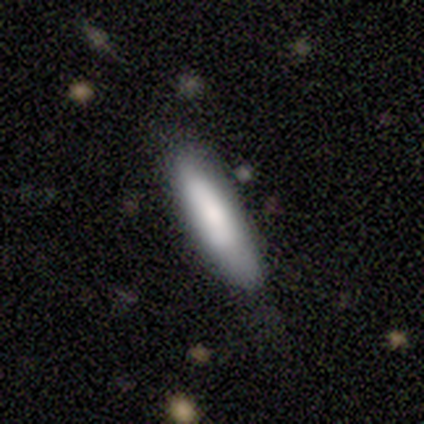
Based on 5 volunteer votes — Smooth or featured: smooth — 60% (featured or disk — 40%)
How rounded: cigar-shaped — 100%
Merging: none — 80% (major disturbance — 20%)